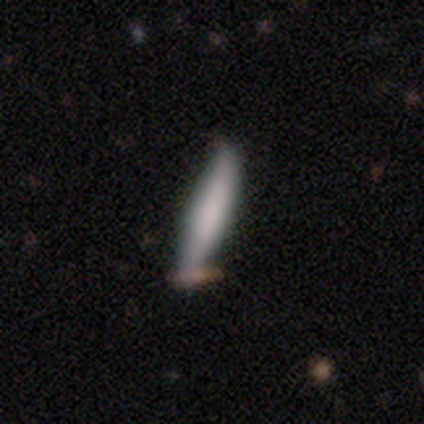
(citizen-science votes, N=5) Smooth or featured: smooth — 60% (featured or disk — 20%)
How rounded: cigar-shaped — 100%
Merging: none — 50% (tied with minor disturbance — 50%)